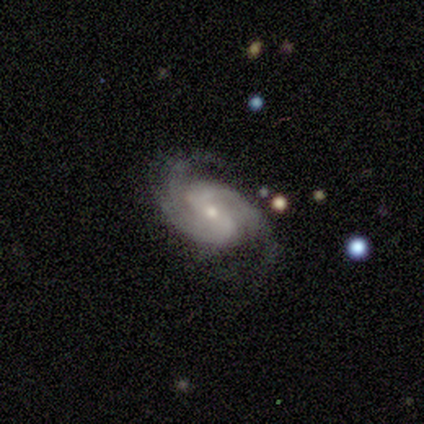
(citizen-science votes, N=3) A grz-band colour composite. It shows a featured or disk galaxy (100%) with no bar (67%), 2 (33%, tied with 3 and can't tell) tight (67%) spiral arms (100%) and a small central bulge (100%). Merging: none (67%).